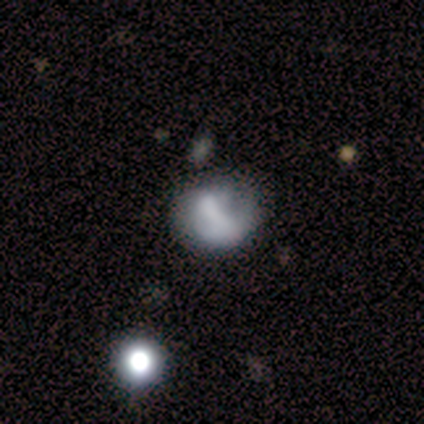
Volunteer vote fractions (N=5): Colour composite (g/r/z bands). It shows a featured or disk galaxy (40%, tied with star or artifact) with a weak bar (50%, tied with no), 1 (100%) tight (100%) spiral arms (100%) and a small central bulge (50%, tied with none). Merging: none (67%).